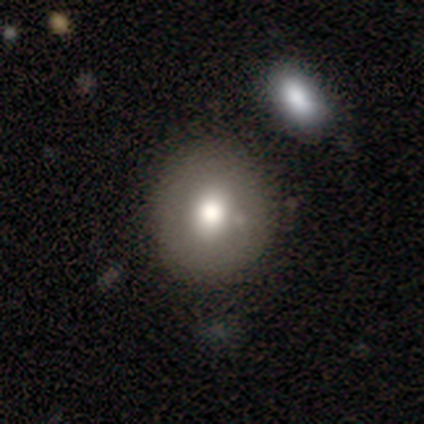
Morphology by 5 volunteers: Smooth or featured?
  - smooth: 80% *
  - featured or disk: 20%
  - star or artifact: 0%
How rounded?
  - round: 75% *
  - in between: 25%
  - cigar-shaped: 0%
Merging?
  - none: 100% *
  - minor disturbance: 0%
  - major disturbance: 0%
  - merger: 0%